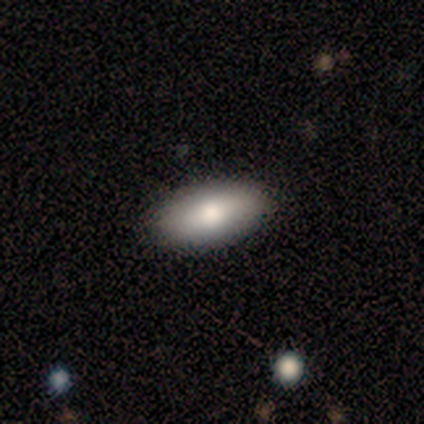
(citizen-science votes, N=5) Overall: smooth (80%). How rounded: in between (100%). Merging: none (100%).